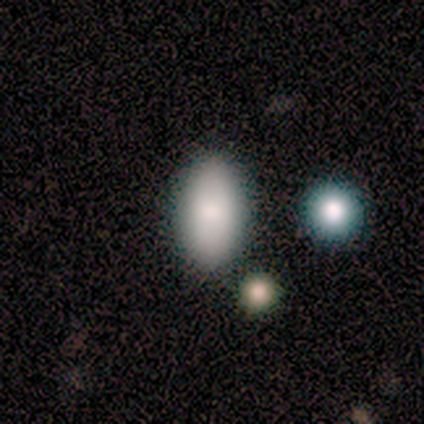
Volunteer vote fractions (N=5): Consensus on every question: smooth or featured — smooth (100%); how rounded — in between (100%); merging — none (100%).